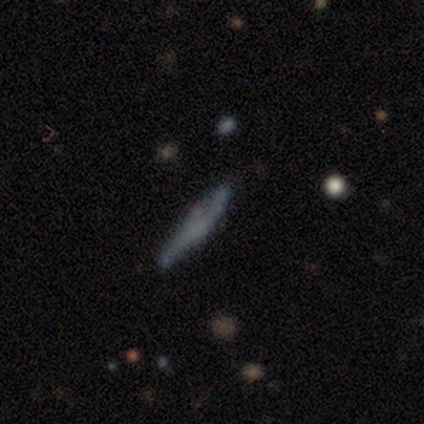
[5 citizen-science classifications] Smooth or featured? featured or disk (60%)
Edge-on disk? yes (100%)
Edge-on bulge? boxy (33%, tied with none and rounded)
Merging? minor disturbance (80%)